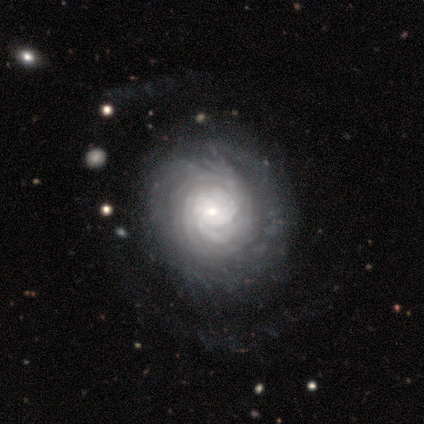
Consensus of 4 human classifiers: Overall: featured or disk (100%). Edge-on disk: no (100%). Bar: no (100%). Spiral arms: yes (100%). Spiral arm count: can't tell (100%). Spiral winding: tight (100%). Bulge size: small (100%). Merging: none (75%).